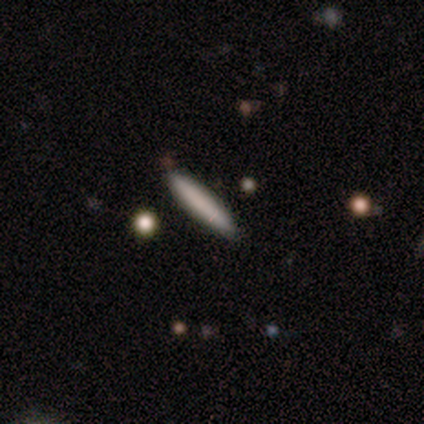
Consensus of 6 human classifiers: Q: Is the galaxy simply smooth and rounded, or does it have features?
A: smooth — 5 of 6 (83%).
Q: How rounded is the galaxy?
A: cigar-shaped — 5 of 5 (100%).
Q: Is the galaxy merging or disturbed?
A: none — 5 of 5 (100%).